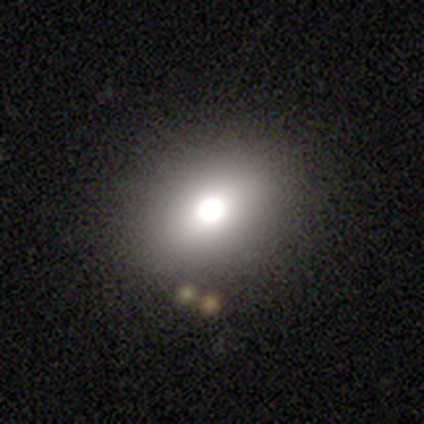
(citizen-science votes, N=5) Smooth or featured: smooth — 80% (star or artifact — 20%)
How rounded: in between — 75% (round — 25%)
Merging: none — 100%